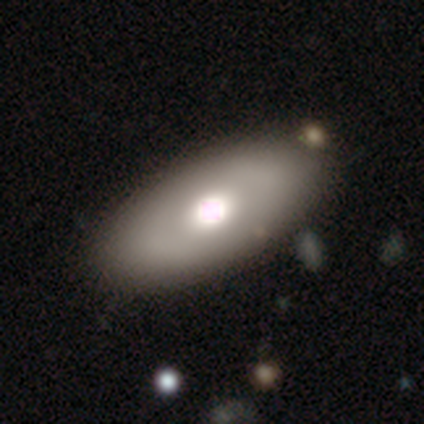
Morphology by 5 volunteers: Overall: smooth (40%, tied with featured or disk). How rounded: in between (100%). Merging: none (100%).